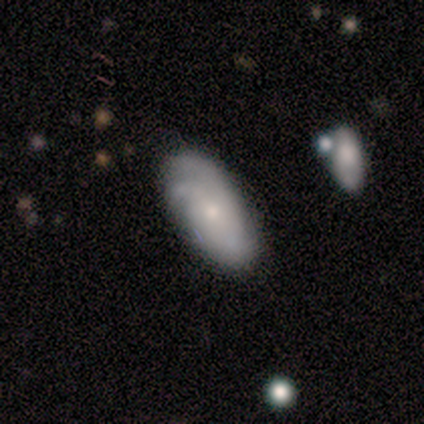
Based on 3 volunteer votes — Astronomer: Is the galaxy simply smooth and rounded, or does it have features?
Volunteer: featured or disk — 67%.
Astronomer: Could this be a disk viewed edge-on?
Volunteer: no — 100%.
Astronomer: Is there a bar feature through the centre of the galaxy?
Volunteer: weak — 50%, tied with no at 50%.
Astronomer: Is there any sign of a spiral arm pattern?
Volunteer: yes — 100%.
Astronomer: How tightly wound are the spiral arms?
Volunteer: tight — 50%, tied with loose at 50%.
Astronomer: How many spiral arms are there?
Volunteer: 3 — 50%, tied with can't tell at 50%.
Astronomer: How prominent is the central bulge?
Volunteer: small — 100%.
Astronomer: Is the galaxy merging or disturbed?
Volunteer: none — 100%.